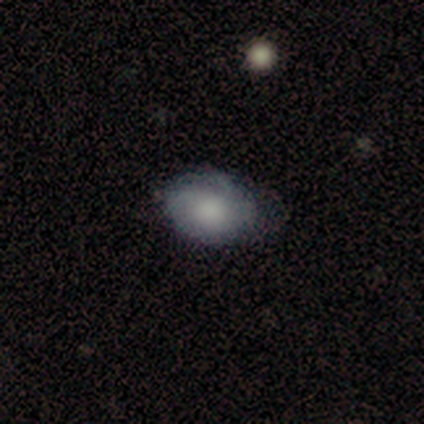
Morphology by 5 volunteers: smooth_or_featured: featured or disk (p=0.60) [alt: smooth p=0.40]
disk_edge_on: no (p=1.00)
bar: no (p=1.00)
has_spiral_arms: no (p=0.67) [alt: yes p=0.33]
bulge_size: none (p=0.67) [alt: moderate p=0.33]
merging: minor disturbance (p=0.60) [alt: none p=0.40]